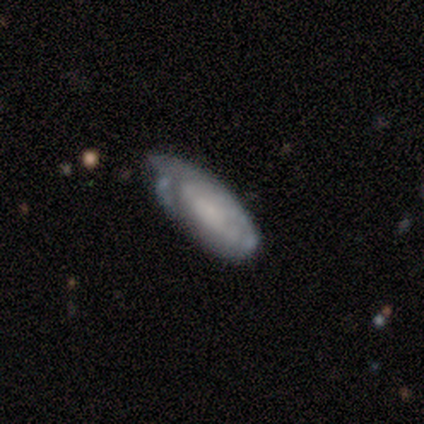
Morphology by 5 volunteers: type=featured or disk (60%); edge-on=no (100%); bar=no (67%); spiral arms=yes (67%); winding=tight (100%); arm count=3 (50%, tied with can't tell); bulge=small (67%); merging=none (80%).